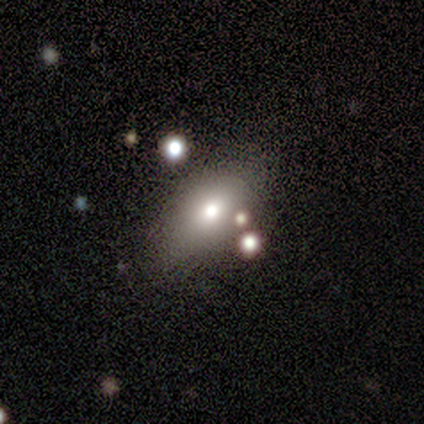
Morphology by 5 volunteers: Volunteers were most divided on "edge-on bulge" (2-way tie): boxy: 50%, rounded: 50%, none: 0%. More confident: edge-on disk — yes (67%); smooth or featured — featured or disk (60%); merging — none (60%).